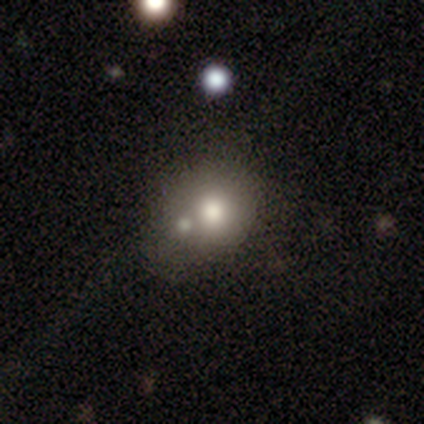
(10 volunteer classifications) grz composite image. It shows a smooth galaxy with no disk features (80%) that is round (75%). Merging: none (33%, tied with minor disturbance).